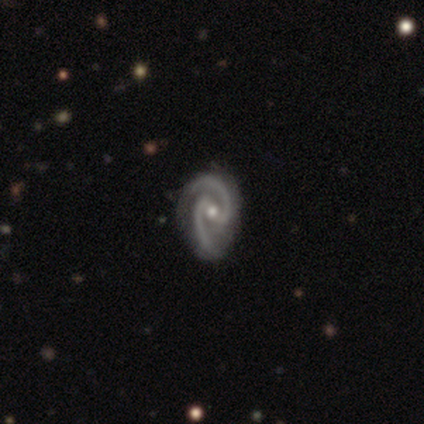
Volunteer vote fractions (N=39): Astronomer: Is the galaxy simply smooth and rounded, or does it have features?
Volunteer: featured or disk — 97%.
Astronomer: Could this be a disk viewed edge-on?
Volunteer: no — 100%.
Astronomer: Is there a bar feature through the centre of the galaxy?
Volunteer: weak — 50% (runner-up: strong, 42%).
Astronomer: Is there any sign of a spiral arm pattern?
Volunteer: yes — 97%.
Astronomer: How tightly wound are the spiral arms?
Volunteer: medium — 65%.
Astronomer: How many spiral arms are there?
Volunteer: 2 — 100%.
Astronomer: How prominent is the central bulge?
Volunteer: moderate — 63%.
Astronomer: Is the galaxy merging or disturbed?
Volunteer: none — 47%.